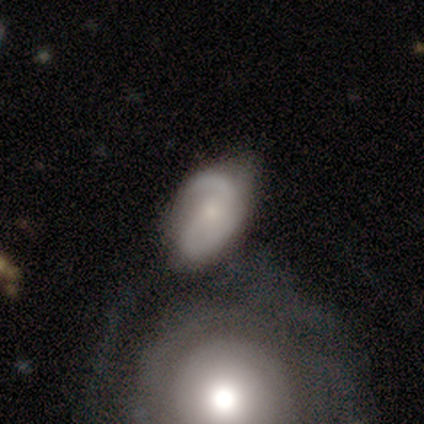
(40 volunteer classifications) Volunteers were most divided on "merging": none: 38%, merger: 30%, minor disturbance: 18%, major disturbance: 15%. More confident: edge-on disk — no (100%); spiral arms — yes (96%); spiral arm count — 2 (88%); smooth or featured — featured or disk (65%); bulge size — small (58%); spiral winding — medium (56%); bar — no (50%).